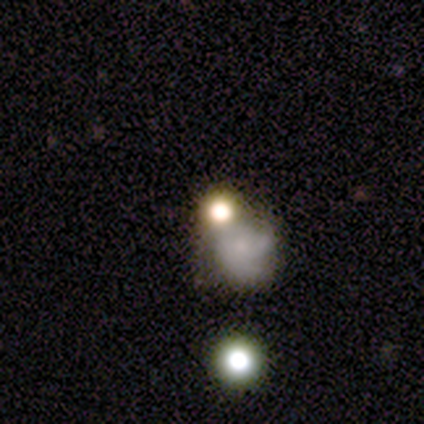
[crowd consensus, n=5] A featured or disk galaxy (40%, tied with star or artifact) with a weak bar (50%, tied with no), 3 (50%, tied with can't tell) tight (50%, tied with medium) spiral arms (100%) and a small central bulge (100%). Merging: none (67%).